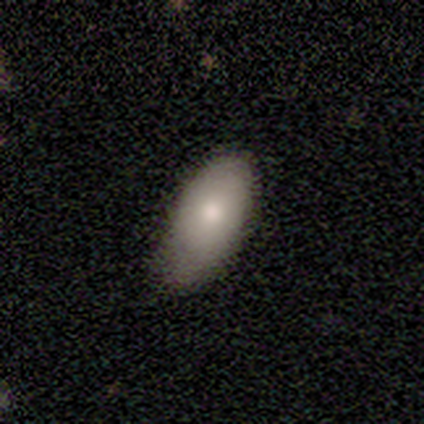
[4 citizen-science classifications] This is likely a smooth galaxy (75%). How rounded: clearly in between (100%). Merging: likely minor disturbance (75%).